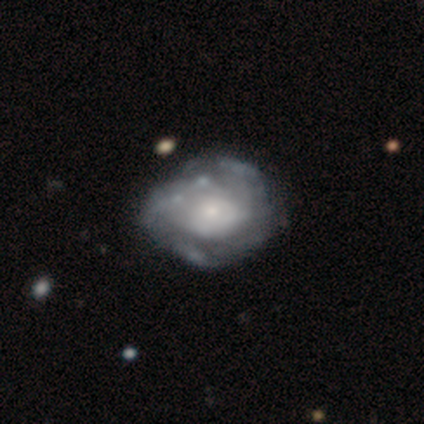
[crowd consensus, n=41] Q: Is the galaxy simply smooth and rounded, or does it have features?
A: featured or disk — 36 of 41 (88%).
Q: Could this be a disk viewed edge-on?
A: no — 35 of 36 (97%).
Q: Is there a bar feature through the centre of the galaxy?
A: no — 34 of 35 (97%).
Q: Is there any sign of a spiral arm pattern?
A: yes — 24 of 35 (69%).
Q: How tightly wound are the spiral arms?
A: tight — 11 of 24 (46%).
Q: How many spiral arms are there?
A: can't tell — 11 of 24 (46%).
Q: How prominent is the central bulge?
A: small — 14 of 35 (40%).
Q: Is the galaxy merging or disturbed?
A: none — 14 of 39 (36%).